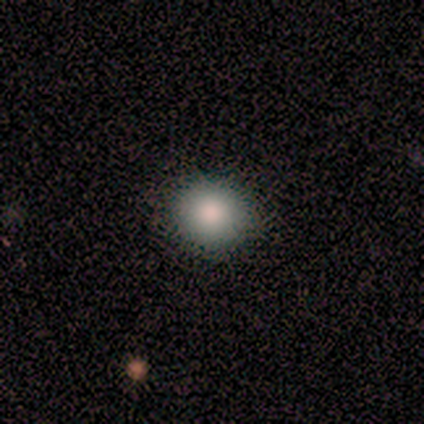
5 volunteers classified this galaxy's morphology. This appears to be a smooth galaxy with no disk features (100%) that is round (100%). Merging: none (100%).